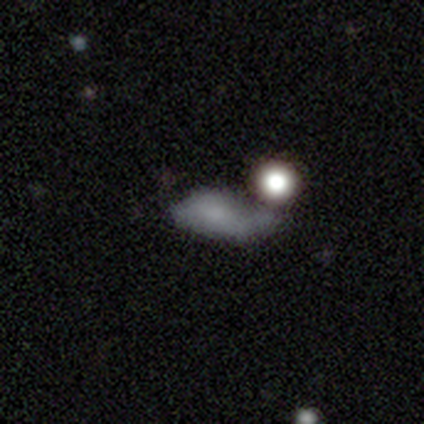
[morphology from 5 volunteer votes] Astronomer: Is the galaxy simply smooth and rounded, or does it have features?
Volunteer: featured or disk — 60%.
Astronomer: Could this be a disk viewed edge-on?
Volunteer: no — 67%.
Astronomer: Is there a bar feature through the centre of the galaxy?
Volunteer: weak — 50%, tied with no at 50%.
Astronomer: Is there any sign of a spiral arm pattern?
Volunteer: no — 100%.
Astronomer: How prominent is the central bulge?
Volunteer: moderate — 50%, tied with small at 50%.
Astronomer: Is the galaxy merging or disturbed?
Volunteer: merger — 50%.